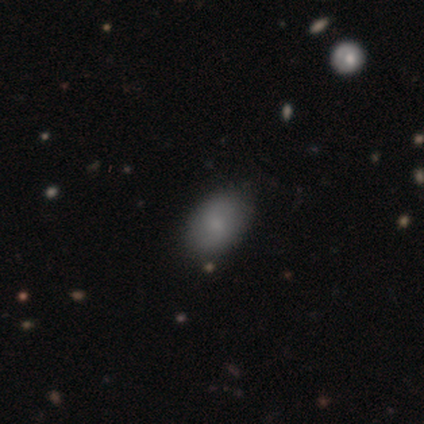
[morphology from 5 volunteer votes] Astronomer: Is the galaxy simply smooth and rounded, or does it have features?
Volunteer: smooth — 100%.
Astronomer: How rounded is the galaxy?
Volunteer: in between — 100%.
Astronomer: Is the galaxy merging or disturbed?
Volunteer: none — 100%.